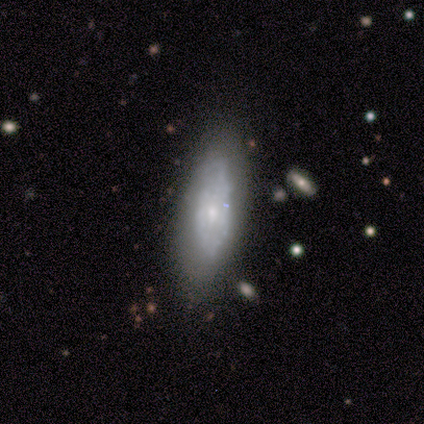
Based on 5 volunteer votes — Smooth or featured: featured or disk — 60% (smooth — 40%)
Edge-on disk: no — 67% (yes — 33%)
Bar: no — 100%
Spiral arms: yes — 100%
Spiral winding: medium — 100%
Spiral arm count: can't tell — 100%
Bulge size: moderate — 100%
Merging: none — 60% (minor disturbance — 40%)